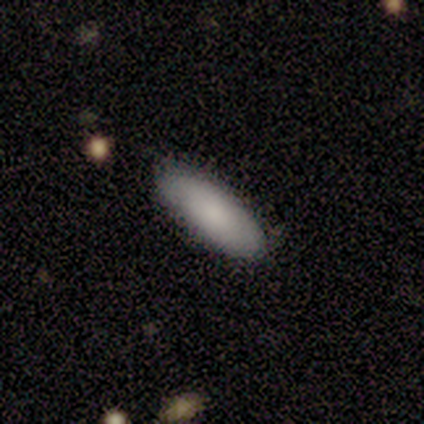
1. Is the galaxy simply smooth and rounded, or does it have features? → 80% smooth, 20% featured or disk, 0% star or artifact.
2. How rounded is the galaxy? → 75% in between, 25% cigar-shaped, 0% round.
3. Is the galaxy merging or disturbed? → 80% none, 20% minor disturbance, 0% major disturbance, 0% merger.